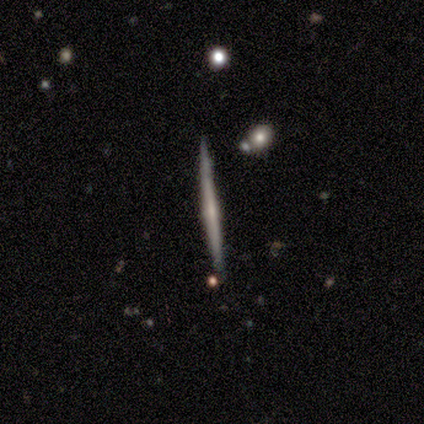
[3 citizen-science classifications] This appears to be a smooth galaxy with no disk features (67%) that is cigar-shaped (100%). Merging: none (67%).